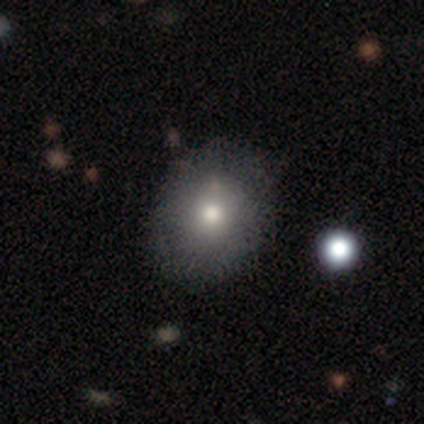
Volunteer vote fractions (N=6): Morphology: type=smooth (83%); roundness=round (60%); merging=none (100%).